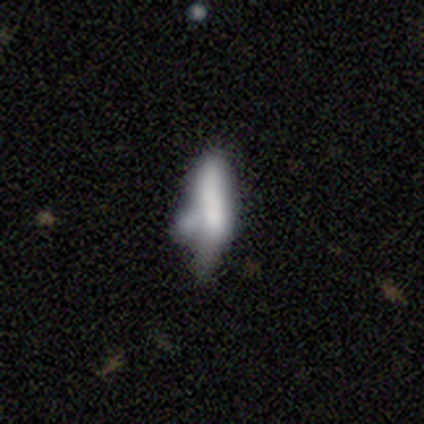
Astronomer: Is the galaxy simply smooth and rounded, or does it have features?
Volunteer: smooth — 60%.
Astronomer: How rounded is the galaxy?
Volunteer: cigar-shaped — 58% (runner-up: in between, 38%).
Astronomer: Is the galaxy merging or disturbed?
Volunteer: minor disturbance — 37% (runner-up: merger, 34%).